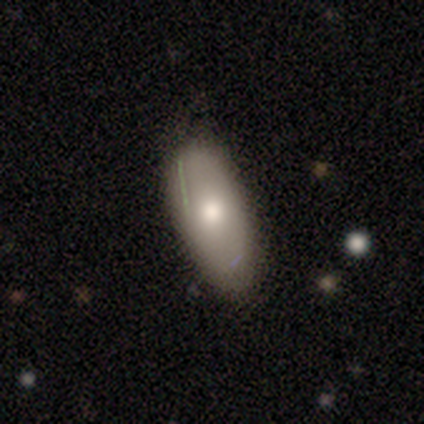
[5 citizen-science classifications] This appears to be a smooth galaxy with no disk features (80%) that is in between round and cigar-shaped (100%). Merging: none (80%).